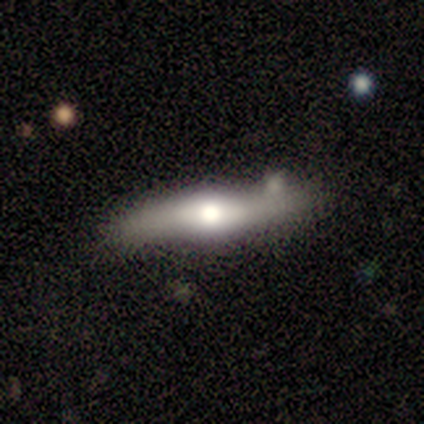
smooth-or-featured: featured or disk: 80% | smooth: 20% | star or artifact: 0%
  disk-edge-on: yes: 75% | no: 25%
    edge-on-bulge: rounded: 100% | boxy: 0% | none: 0%
  merging: none: 60% | merger: 40% | minor disturbance: 0% | major disturbance: 0%